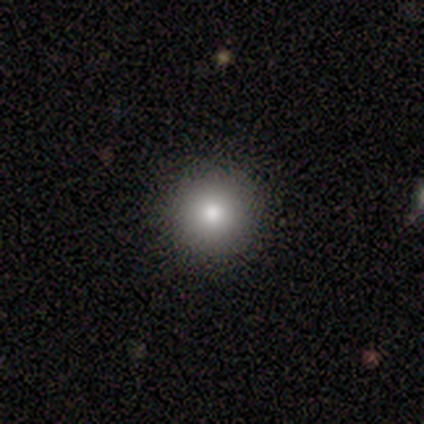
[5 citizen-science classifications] Overall: smooth (80%). How rounded: round (100%). Merging: none (100%).